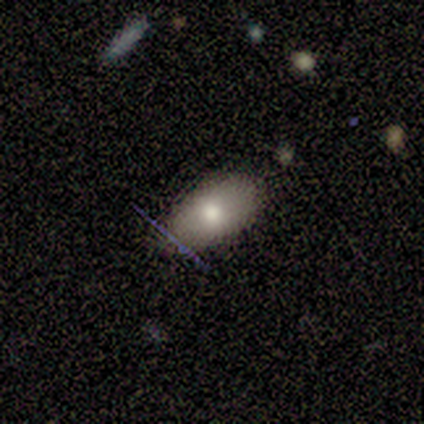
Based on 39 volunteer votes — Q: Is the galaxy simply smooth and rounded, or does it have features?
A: smooth — 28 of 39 (72%).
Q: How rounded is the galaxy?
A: in between — 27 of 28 (96%).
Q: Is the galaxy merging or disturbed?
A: none — 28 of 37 (76%).